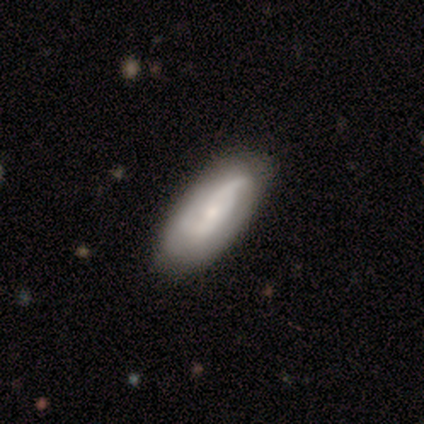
Smooth or featured?
  - smooth: 80% *
  - featured or disk: 20%
  - star or artifact: 0%
How rounded?
  - in between: 50% * (tied)
  - cigar-shaped: 50% * (tied)
  - round: 0%
Merging?
  - none: 80% *
  - minor disturbance: 20%
  - major disturbance: 0%
  - merger: 0%